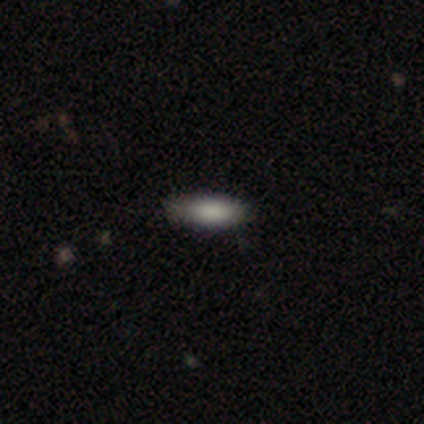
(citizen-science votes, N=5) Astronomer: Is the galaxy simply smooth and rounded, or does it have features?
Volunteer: smooth — 100%.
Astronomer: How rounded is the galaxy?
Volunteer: cigar-shaped — 60% (runner-up: in between, 40%).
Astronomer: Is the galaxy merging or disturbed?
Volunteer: none — 100%.